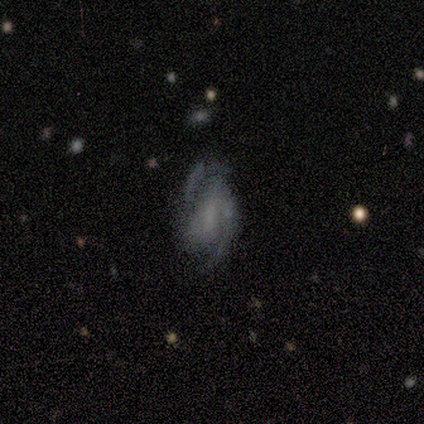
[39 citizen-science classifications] This is clearly a featured or disk galaxy (82%). It is clearly not viewed edge-on (97%). Bar: possibly weak (48%). Spiral arm pattern: clearly yes (87%). Spiral arm count: clearly 2 (93%). Spiral winding: possibly medium (52%). Central bulge: marginally none (35%). Merging: possibly none (47%).